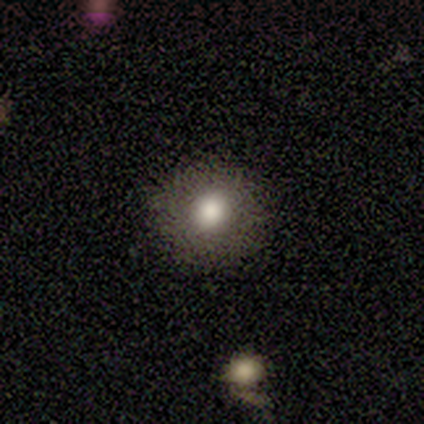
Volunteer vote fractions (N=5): A smooth galaxy with no disk features (60%) that is round (100%). Merging: none (100%).